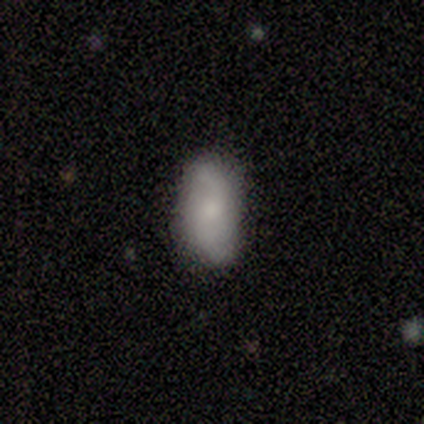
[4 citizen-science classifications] Smooth or featured: smooth — 50% (tied with featured or disk — 50%)
How rounded: in between — 50% (tied with cigar-shaped — 50%)
Merging: none — 100%